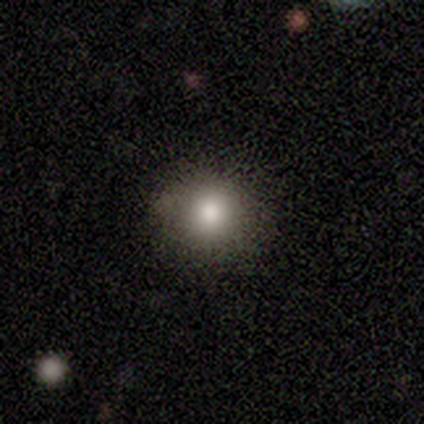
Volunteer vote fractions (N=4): A smooth galaxy with no disk features (75%) that is round (100%). Merging: none (75%).